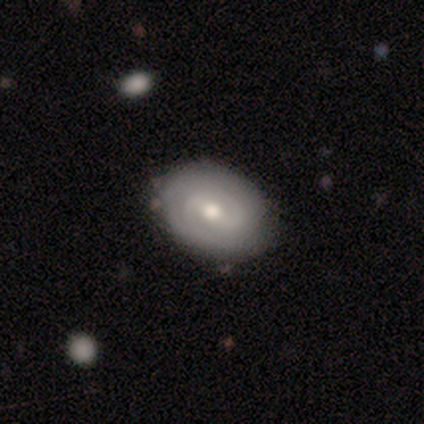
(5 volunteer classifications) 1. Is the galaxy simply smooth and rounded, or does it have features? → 80% featured or disk, 20% smooth, 0% star or artifact.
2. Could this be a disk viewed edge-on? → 100% no, 0% yes.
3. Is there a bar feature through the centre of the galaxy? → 75% weak, 25% no, 0% strong.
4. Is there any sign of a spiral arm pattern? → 100% yes, 0% no.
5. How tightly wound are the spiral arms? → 50% tight (tied), 50% medium (tied), 0% loose.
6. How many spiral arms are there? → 50% 2, 25% 3, 25% can't tell, 0% 1, 0% 4, 0% more than 4.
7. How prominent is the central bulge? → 100% moderate, 0% dominant, 0% large, 0% small, 0% none.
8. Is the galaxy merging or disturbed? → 100% none, 0% minor disturbance, 0% major disturbance, 0% merger.